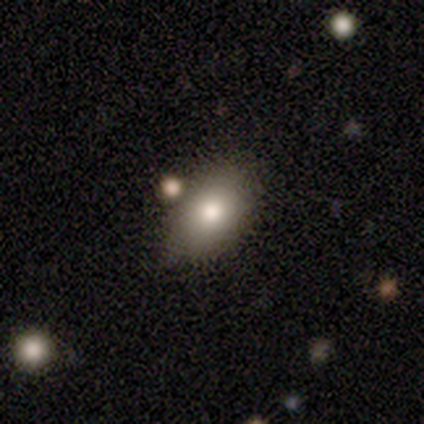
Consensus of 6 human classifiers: This appears to be a smooth galaxy with no disk features (100%) that is in between round and cigar-shaped (100%). Merging: none (67%).